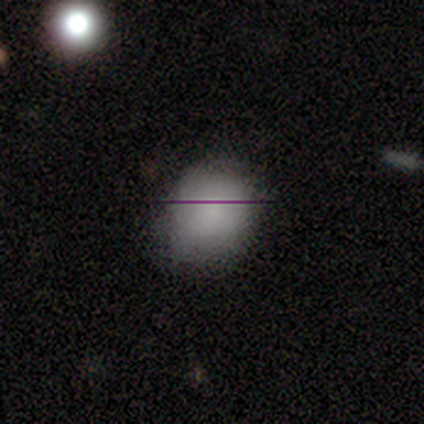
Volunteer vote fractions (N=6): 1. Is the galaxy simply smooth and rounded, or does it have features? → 100% smooth, 0% featured or disk, 0% star or artifact.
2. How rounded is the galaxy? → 67% round, 33% in between, 0% cigar-shaped.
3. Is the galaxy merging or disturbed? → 67% none, 33% minor disturbance, 0% major disturbance, 0% merger.